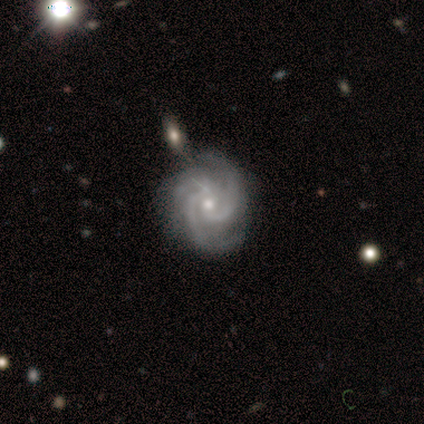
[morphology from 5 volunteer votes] A featured or disk galaxy (100%) with no bar (60%), 3 (60%) medium (60%) spiral arms (100%) and a moderate central bulge (60%).

Vote fractions:
- Smooth or featured? featured or disk: 100% / smooth: 0% / star or artifact: 0%
- Edge-on disk? no: 100% / yes: 0%
- Bar? no: 60% / weak: 40% / strong: 0%
- Spiral arms? yes: 100% / no: 0%
- Spiral winding? medium: 60% / tight: 40% / loose: 0%
- Spiral arm count? 3: 60% / 2: 20% / 4: 20% / 1: 0% / more than 4: 0% / can't tell: 0%
- Bulge size? moderate: 60% / small: 40% / dominant: 0% / large: 0% / none: 0%
- Merging? none: 100% / minor disturbance: 0% / major disturbance: 0% / merger: 0%